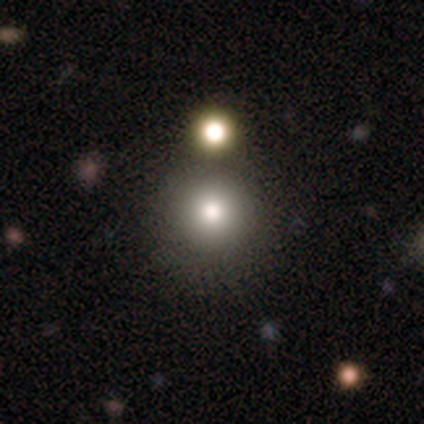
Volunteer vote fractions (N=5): This is clearly a smooth galaxy (80%). How rounded: clearly round (100%). Merging: likely none (60%).